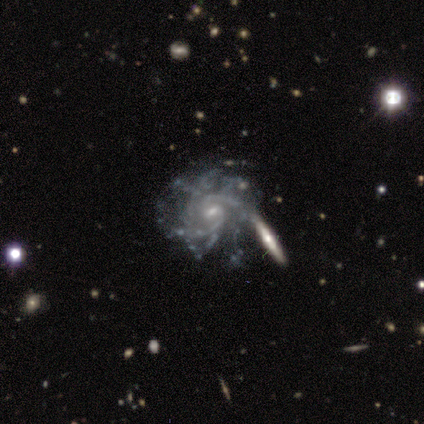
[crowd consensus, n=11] A featured or disk galaxy (91%) with no bar (60%), tight (70%) spiral arms (100%) and a small central bulge (60%).

Vote fractions:
- Smooth or featured? featured or disk: 91% / star or artifact: 9% / smooth: 0%
- Edge-on disk? no: 100% / yes: 0%
- Bar? no: 60% / weak: 30% / strong: 10%
- Spiral arms? yes: 100% / no: 0%
- Spiral winding? tight: 70% / medium: 30% / loose: 0%
- Spiral arm count? can't tell: 40% / more than 4: 30% / 2: 10% / 3: 10% / 4: 10% / 1: 0%
- Bulge size? small: 60% / moderate: 40% / dominant: 0% / large: 0% / none: 0%
- Merging? none: 60% / major disturbance: 20% / minor disturbance: 10% / merger: 10%